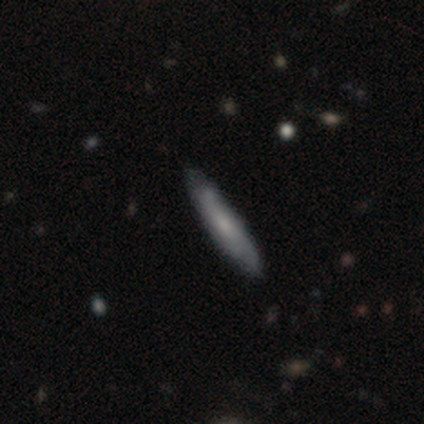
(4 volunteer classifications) This is possibly a smooth galaxy (50%, tied with featured or disk). How rounded: clearly cigar-shaped (100%). Merging: likely none (75%).